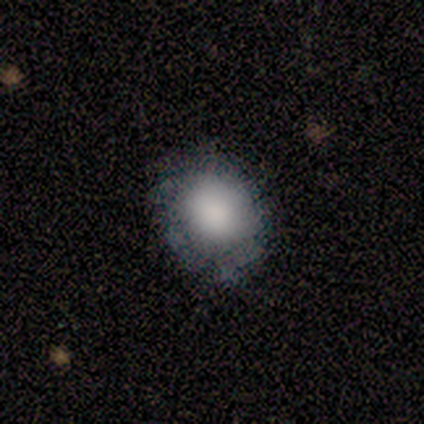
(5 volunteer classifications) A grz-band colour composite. It shows a smooth galaxy with no disk features (100%) that is round (80%). Merging: none (40%, tied with minor disturbance).